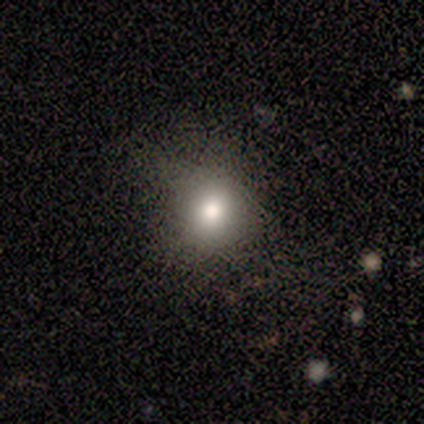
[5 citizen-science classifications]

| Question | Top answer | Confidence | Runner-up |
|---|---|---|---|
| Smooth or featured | smooth | 60% | featured or disk (20%) |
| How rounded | round | 67% | in between (33%) |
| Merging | none | 75% | major disturbance (25%) |